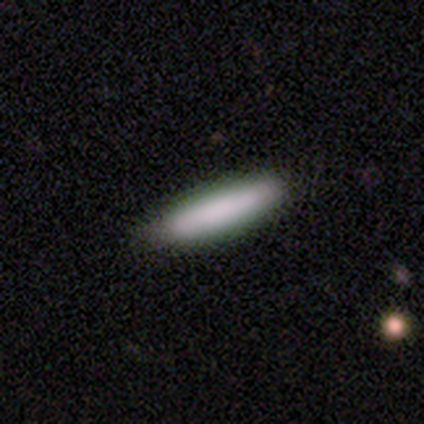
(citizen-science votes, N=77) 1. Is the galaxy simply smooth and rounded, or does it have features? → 90% smooth, 9% featured or disk, 1% star or artifact.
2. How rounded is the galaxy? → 91% cigar-shaped, 7% in between, 1% round.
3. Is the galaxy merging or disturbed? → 54% none, 9% minor disturbance, 3% major disturbance, 0% merger.